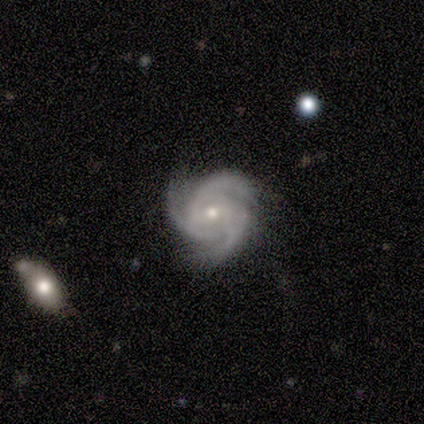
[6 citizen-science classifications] smooth-or-featured: featured or disk: 100% | smooth: 0% | star or artifact: 0%
  disk-edge-on: no: 100% | yes: 0%
    bar: no: 83% | weak: 17% | strong: 0%
    has-spiral-arms: yes: 100% | no: 0%
      spiral-winding: tight: 67% | medium: 33% | loose: 0%
      spiral-arm-count: 3: 83% | can't tell: 17% | 1: 0% | 2: 0% | 4: 0% | more than 4: 0%
    bulge-size: small: 100% | dominant: 0% | large: 0% | moderate: 0% | none: 0%
  merging: none: 83% | minor disturbance: 17% | major disturbance: 0% | merger: 0%